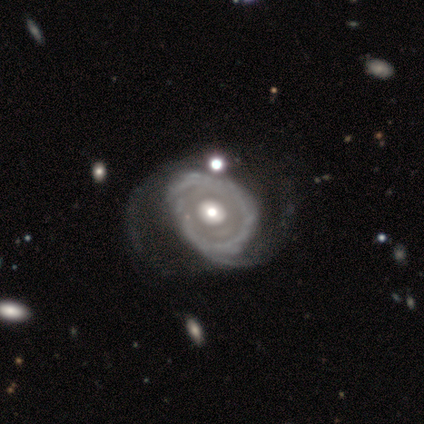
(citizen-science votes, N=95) This appears to be a featured or disk galaxy (94%) with no bar (91%), 2 (71%) medium (34%, tied with loose) spiral arms (68%) and a moderate central bulge (67%). Merging: none (37%).